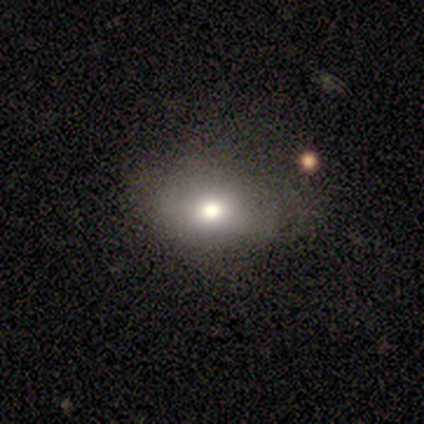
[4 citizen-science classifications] smooth_or_featured: smooth (p=0.75) [alt: featured or disk p=0.25]
how_rounded: in between (p=0.67) [alt: round p=0.33]
merging: none (p=0.75) [alt: major disturbance p=0.25]